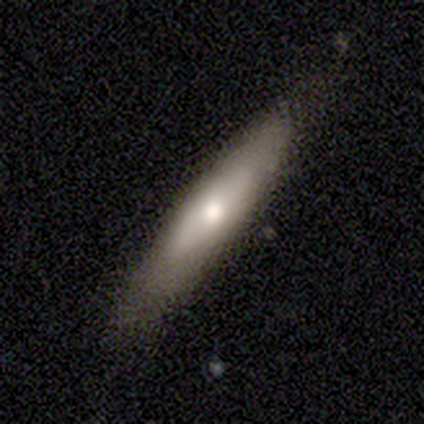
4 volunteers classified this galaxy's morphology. smooth-or-featured: featured or disk: 100% | smooth: 0% | star or artifact: 0%
  disk-edge-on: yes: 50% (tied) | no: 50% (tied)
    edge-on-bulge: rounded: 100% | boxy: 0% | none: 0%
  merging: none: 100% | minor disturbance: 0% | major disturbance: 0% | merger: 0%